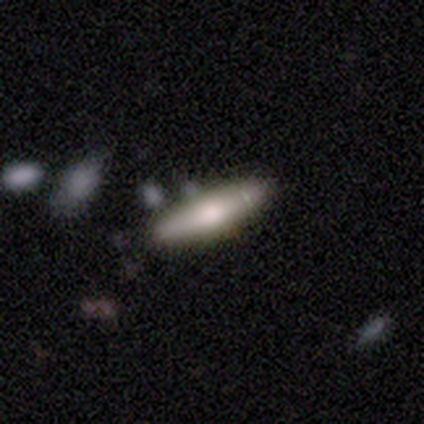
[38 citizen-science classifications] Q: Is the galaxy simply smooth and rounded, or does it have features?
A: smooth — 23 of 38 (61%).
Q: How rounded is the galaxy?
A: cigar-shaped — 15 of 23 (65%).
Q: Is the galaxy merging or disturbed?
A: none — 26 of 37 (70%).